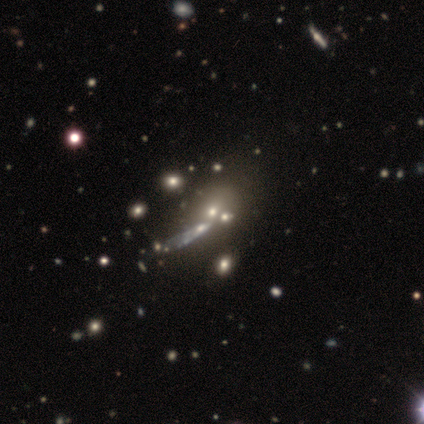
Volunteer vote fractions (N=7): A star or artifact, not a galaxy (71%).